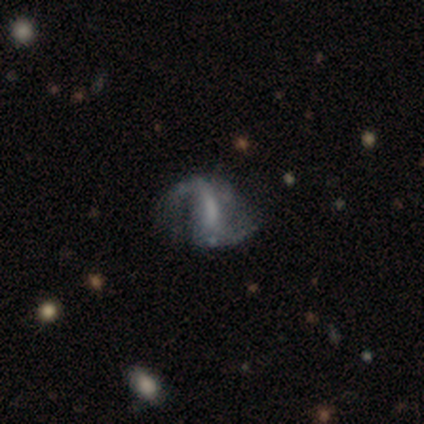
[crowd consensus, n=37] Volunteers were most divided on "bar": weak: 48%, strong: 30%, no: 22%. Remaining: edge-on disk — no (93%); spiral arm count — 2 (92%); spiral arms — yes (89%); smooth or featured — featured or disk (78%); merging — none (59%); spiral winding — loose (54%); bulge size — none (48%).